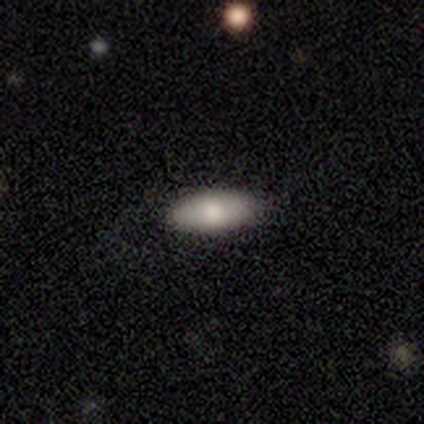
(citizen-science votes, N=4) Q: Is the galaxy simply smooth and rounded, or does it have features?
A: smooth — 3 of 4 (75%).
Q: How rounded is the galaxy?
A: in between — 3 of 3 (100%).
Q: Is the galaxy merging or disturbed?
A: none — 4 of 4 (100%).